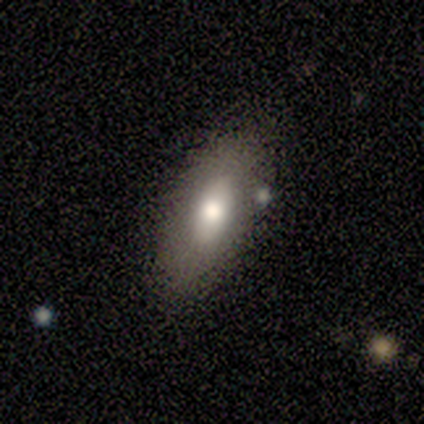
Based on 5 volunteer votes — A smooth galaxy with no disk features (80%) that is in between round and cigar-shaped (50%).

Vote fractions:
- Smooth or featured? smooth: 80% / featured or disk: 20% / star or artifact: 0%
- How rounded? in between: 50% / round: 25% / cigar-shaped: 25%
- Merging? none: 60% / minor disturbance: 40% / major disturbance: 0% / merger: 0%